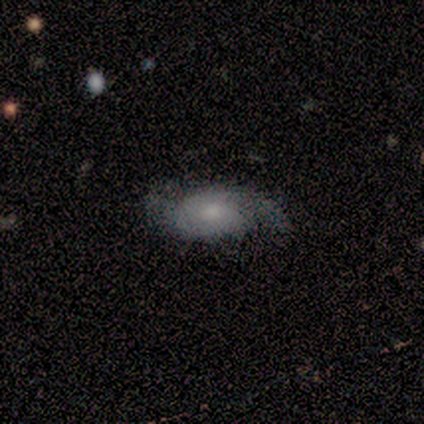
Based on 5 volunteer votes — featured or disk 60%, smooth 40%, star or artifact 0%. Down the decision tree: edge-on disk — no (100%); bar — no (100%); spiral arms — yes (67%); spiral arm count — 2 (50%, tied with can't tell); spiral winding — tight (100%); bulge size — dominant (33%, tied with moderate and small); merging — none (40%, tied with minor disturbance).